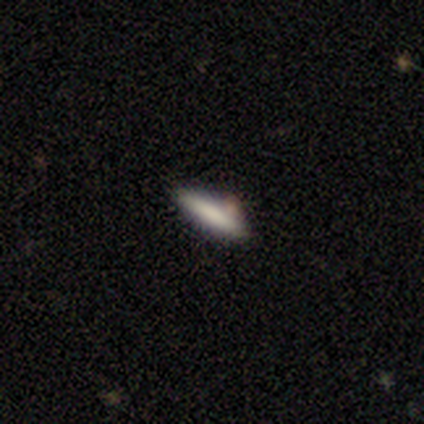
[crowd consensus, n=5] This is clearly a smooth galaxy (80%). How rounded: clearly cigar-shaped (100%). Merging: likely none (60%).